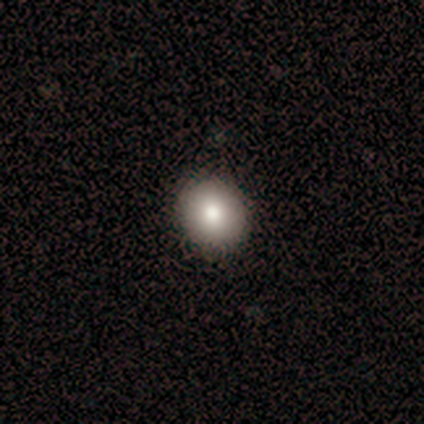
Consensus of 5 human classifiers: A smooth galaxy with no disk features (40%, tied with star or artifact) that is round (100%). Merging: none (100%).